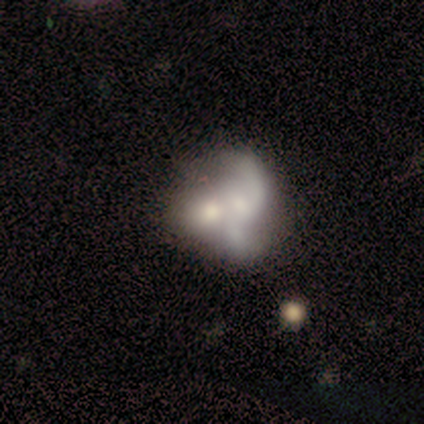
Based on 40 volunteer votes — Volunteers were most divided on "bulge size": small: 41%, moderate: 33%, none: 19%, dominant: 4%, large: 4%. More confident: edge-on disk — no (96%); smooth or featured — featured or disk (70%); bar — no (67%); spiral winding — loose (65%); spiral arm count — 2 (65%); spiral arms — yes (63%); merging — merger (53%).